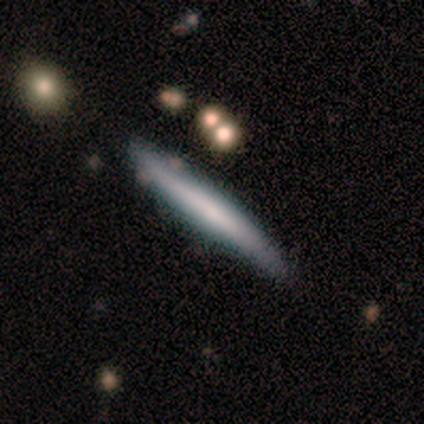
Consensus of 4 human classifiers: Morphology: type=smooth (50%, tied with featured or disk); roundness=cigar-shaped (100%); merging=none (100%).